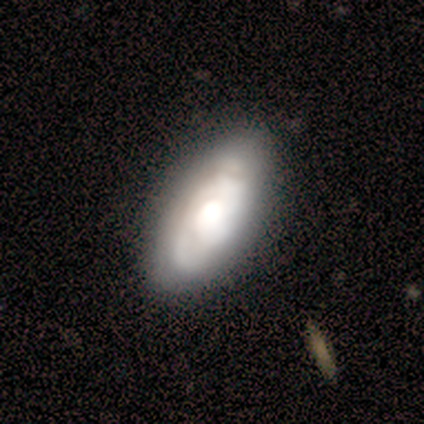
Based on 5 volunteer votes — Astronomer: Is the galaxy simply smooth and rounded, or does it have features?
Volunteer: featured or disk — 80%.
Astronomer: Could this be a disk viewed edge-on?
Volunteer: no — 100%.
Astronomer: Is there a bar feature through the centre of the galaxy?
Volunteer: no — 100%.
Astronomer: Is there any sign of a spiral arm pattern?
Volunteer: yes — 50%, tied with no at 50%.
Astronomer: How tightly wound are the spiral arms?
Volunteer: tight — 100%.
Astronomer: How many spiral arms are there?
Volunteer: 1 — 50%, tied with can't tell at 50%.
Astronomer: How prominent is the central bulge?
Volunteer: large — 75%.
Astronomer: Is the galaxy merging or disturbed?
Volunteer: minor disturbance — 80%.